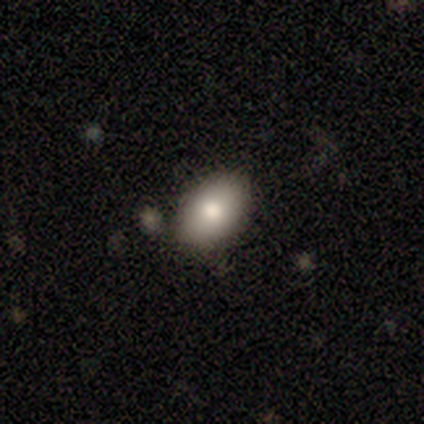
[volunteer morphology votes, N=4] Volunteers were most divided on "how rounded": in between: 75%, round: 25%, cigar-shaped: 0%. More confident: smooth or featured — smooth (100%); merging — none (100%).